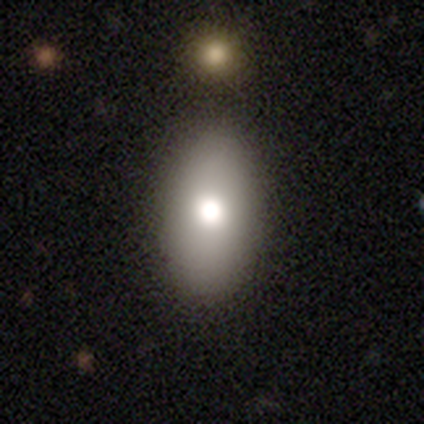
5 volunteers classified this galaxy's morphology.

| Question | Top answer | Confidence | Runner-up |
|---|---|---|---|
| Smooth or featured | smooth | 60% | featured or disk (20%) |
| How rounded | in between | 67% | cigar-shaped (33%) |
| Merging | none | 100% | — |